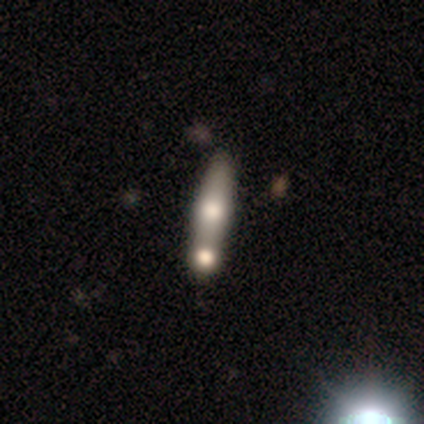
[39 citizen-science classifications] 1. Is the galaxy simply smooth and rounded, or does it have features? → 62% smooth, 36% featured or disk, 3% star or artifact.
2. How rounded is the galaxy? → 83% cigar-shaped, 17% in between, 0% round.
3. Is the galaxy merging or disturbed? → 50% merger, 42% none, 5% minor disturbance, 3% major disturbance.